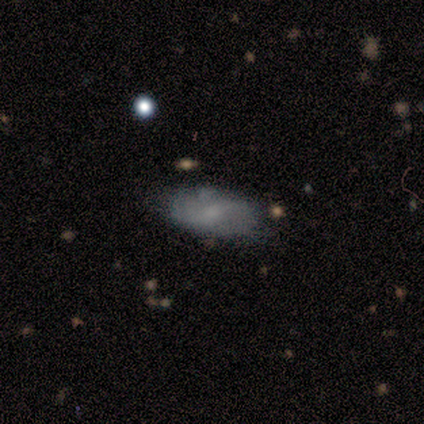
Smooth or featured? 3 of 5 (60%) said smooth. How rounded? 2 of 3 (67%) said in between. Merging? 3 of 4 (75%) said none.